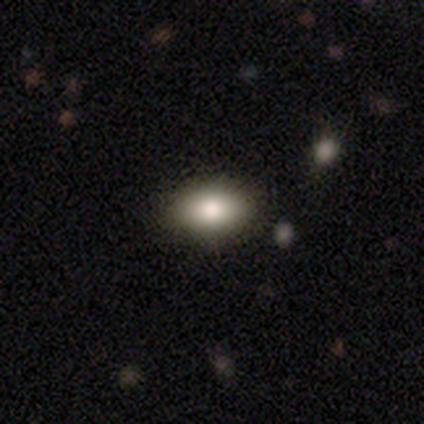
Smooth or featured? smooth (100%)
How rounded? in between (100%)
Merging? none (100%)